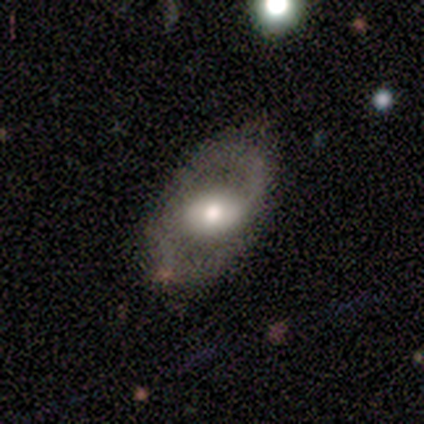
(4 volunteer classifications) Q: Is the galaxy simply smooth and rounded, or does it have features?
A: featured or disk — 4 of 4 (100%).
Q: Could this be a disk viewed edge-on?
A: no — 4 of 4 (100%).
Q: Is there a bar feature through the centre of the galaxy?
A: weak — 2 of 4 (50%).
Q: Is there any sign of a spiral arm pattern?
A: yes — 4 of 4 (100%).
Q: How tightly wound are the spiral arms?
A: medium — 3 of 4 (75%).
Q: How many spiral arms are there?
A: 2 — 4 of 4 (100%).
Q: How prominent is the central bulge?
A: moderate — 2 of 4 (50%).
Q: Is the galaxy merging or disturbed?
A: none — 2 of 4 (50%, tied with minor disturbance).